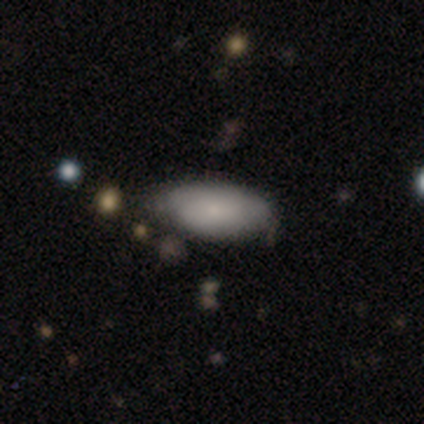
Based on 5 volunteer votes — Volunteers were most divided on "smooth or featured": smooth: 80%, featured or disk: 20%, star or artifact: 0%. More confident: how rounded — in between (100%); merging — none (80%).